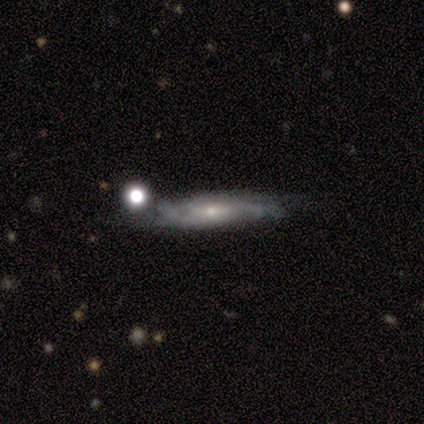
smooth_or_featured: featured or disk (p=0.80) [alt: smooth p=0.20]
disk_edge_on: no (p=1.00)
bar: no (p=0.75) [alt: weak p=0.25]
has_spiral_arms: yes (p=1.00)
spiral_winding: tight (p=0.50) [tied with: medium p=0.50]
spiral_arm_count: can't tell (p=0.50) [alt: 2 p=0.25]
bulge_size: small (p=0.50) [alt: moderate p=0.25]
merging: none (p=0.40) [tied with: minor disturbance p=0.40]